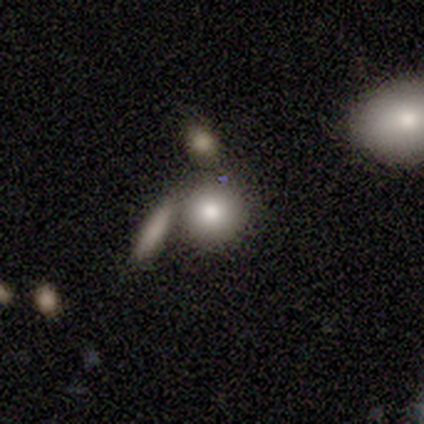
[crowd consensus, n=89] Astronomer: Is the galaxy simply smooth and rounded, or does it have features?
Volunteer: smooth — 76%.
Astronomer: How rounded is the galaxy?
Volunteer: round — 84%.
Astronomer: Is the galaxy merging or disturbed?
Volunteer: none — 64%.